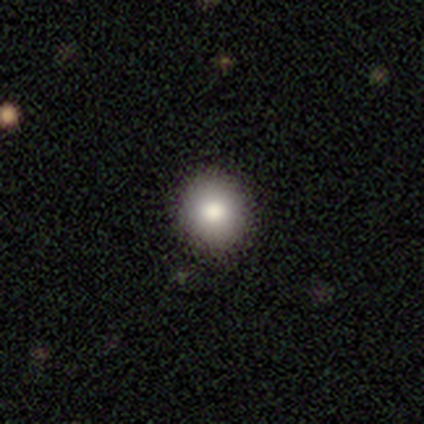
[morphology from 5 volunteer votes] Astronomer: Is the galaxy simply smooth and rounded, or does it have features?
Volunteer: smooth — 60% (runner-up: star or artifact, 40%).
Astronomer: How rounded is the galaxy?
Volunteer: round — 100%.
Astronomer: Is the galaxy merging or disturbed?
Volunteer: none — 67%.